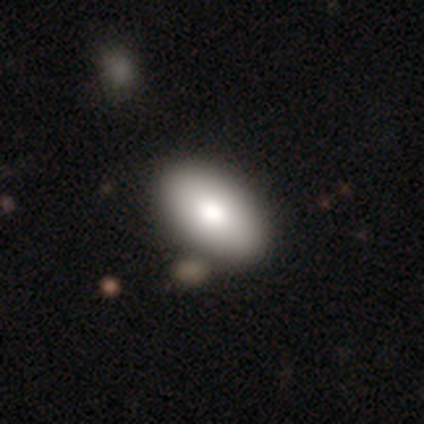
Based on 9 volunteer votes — Smooth or featured: smooth — 100%
How rounded: in between — 89% (round — 11%)
Merging: none — 56% (merger — 33%)